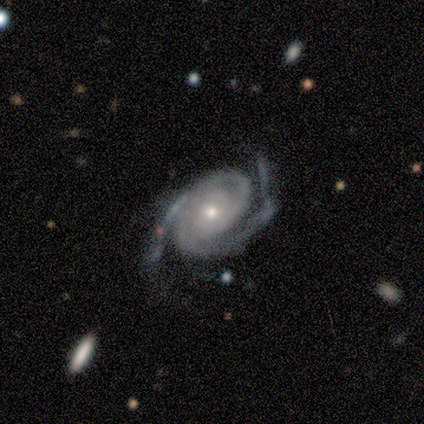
Q: Smooth or featured?
A: featured or disk (98%); runner-up: smooth (2%)
Q: Edge-on disk?
A: no (98%); runner-up: yes (2%)
Q: Bar?
A: no (85%); runner-up: weak (15%)
Q: Spiral arms?
A: yes (100%)
Q: Spiral winding?
A: tight (51%); runner-up: medium (41%)
Q: Spiral arm count?
A: 2 (97%); runner-up: can't tell (3%)
Q: Bulge size?
A: moderate (49%); runner-up: small (41%)
Q: Merging?
A: none (54%); runner-up: minor disturbance (37%)